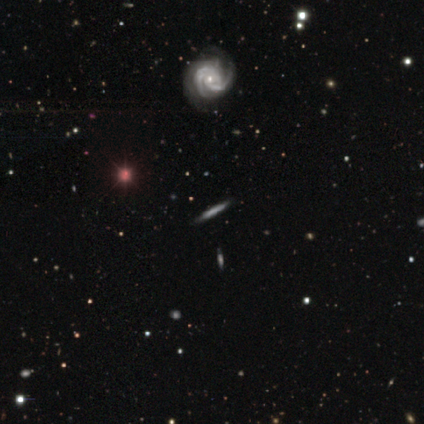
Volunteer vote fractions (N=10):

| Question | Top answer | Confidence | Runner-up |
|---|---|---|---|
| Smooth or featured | featured or disk | 80% | smooth (20%) |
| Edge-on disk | no | 75% | yes (25%) |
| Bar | no | 67% | weak (33%) |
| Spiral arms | yes | 100% | — |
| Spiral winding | tight | 67% | medium (17%) |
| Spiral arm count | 2 | 50% | 3 (33%) |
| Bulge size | moderate | 33% | tied: small (33%) |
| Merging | none | 90% | minor disturbance (10%) |